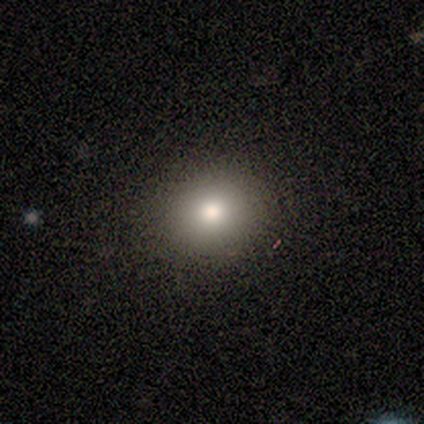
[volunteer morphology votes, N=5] smooth 80%, star or artifact 20%, featured or disk 0%. Down the decision tree: how rounded — round (100%); merging — none (50%, tied with minor disturbance).